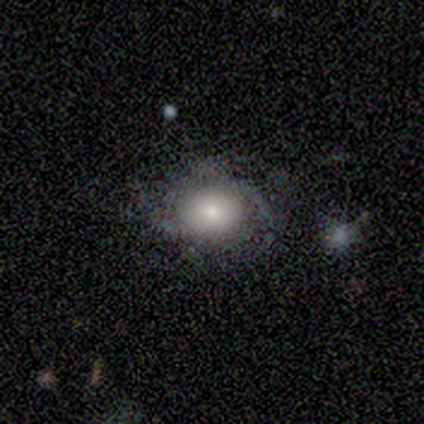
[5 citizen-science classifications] Morphology: type=smooth (40%, tied with featured or disk); roundness=in between (100%); merging=none (75%).